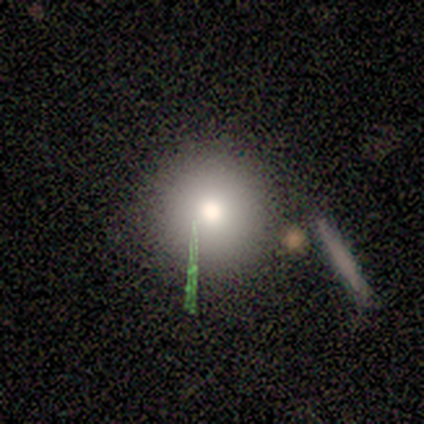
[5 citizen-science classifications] smooth-or-featured: smooth: 40% (tied) | featured or disk: 40% (tied) | star or artifact: 20%
  how-rounded: round: 100% | in between: 0% | cigar-shaped: 0%
  merging: none: 100% | minor disturbance: 0% | major disturbance: 0% | merger: 0%